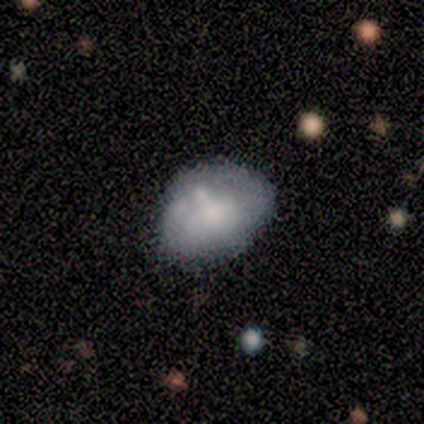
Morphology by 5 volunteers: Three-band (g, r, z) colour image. It shows a smooth galaxy with no disk features (60%) that is in between round and cigar-shaped (100%). Merging: none (80%).